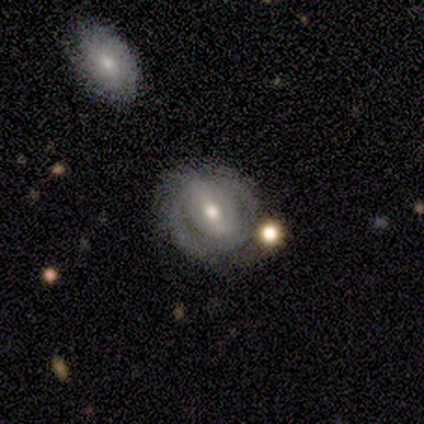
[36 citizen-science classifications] smooth_or_featured: featured or disk (p=0.72) [alt: smooth p=0.25]
disk_edge_on: no (p=0.92) [alt: yes p=0.08]
bar: strong (p=0.38) [alt: weak p=0.33]
has_spiral_arms: yes (p=0.62) [alt: no p=0.38]
spiral_winding: tight (p=0.60) [alt: medium p=0.20]
spiral_arm_count: 2 (p=0.60) [alt: can't tell p=0.40]
bulge_size: moderate (p=0.54) [alt: small p=0.29]
merging: none (p=0.63) [alt: minor disturbance p=0.20]